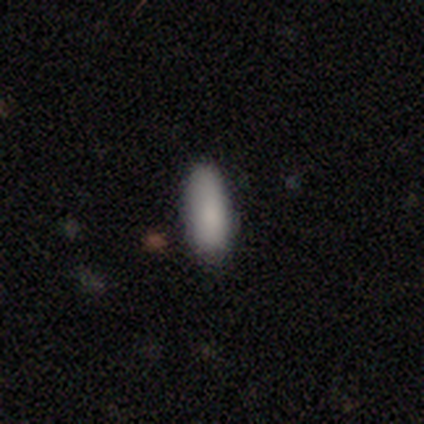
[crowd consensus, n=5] smooth_or_featured: smooth (p=0.80) [alt: featured or disk p=0.20]
how_rounded: in between (p=0.75) [alt: round p=0.25]
merging: none (p=0.80) [alt: minor disturbance p=0.20]